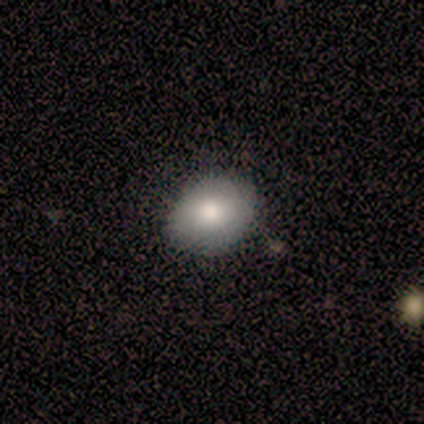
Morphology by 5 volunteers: smooth 100%, featured or disk 0%, star or artifact 0%. Down the decision tree: how rounded — in between (60%); merging — none (100%).